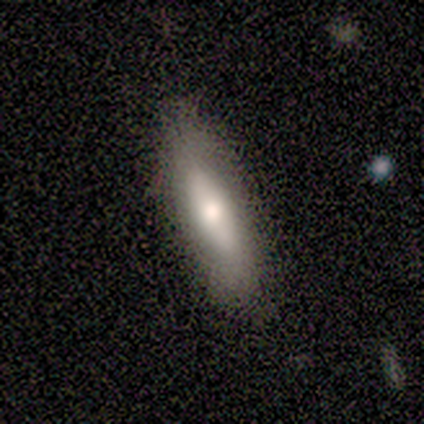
Q: Smooth or featured?
A: smooth (80%); runner-up: featured or disk (20%)
Q: How rounded?
A: in between (75%); runner-up: cigar-shaped (25%)
Q: Merging?
A: none (80%); runner-up: minor disturbance (20%)